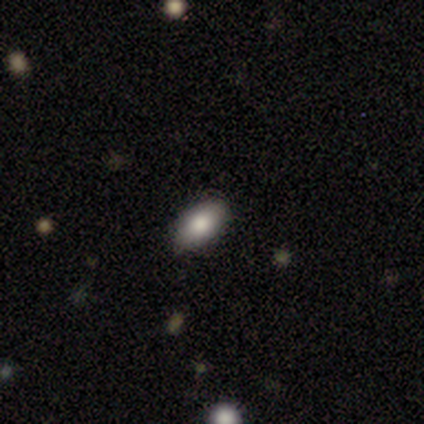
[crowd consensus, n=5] smooth 100%, featured or disk 0%, star or artifact 0%. Down the decision tree: how rounded — in between (100%); merging — none (80%).